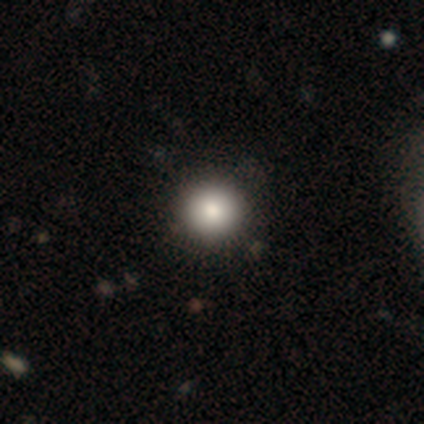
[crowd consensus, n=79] smooth_or_featured: smooth (p=0.82) [alt: featured or disk p=0.10]
how_rounded: round (p=0.97) [alt: in between p=0.03]
merging: none (p=0.59) [alt: minor disturbance p=0.08]